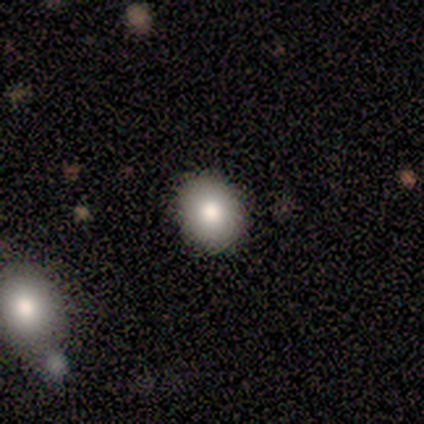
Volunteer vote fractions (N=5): smooth-or-featured: smooth: 80% | star or artifact: 20% | featured or disk: 0%
  how-rounded: round: 100% | in between: 0% | cigar-shaped: 0%
  merging: none: 100% | minor disturbance: 0% | major disturbance: 0% | merger: 0%